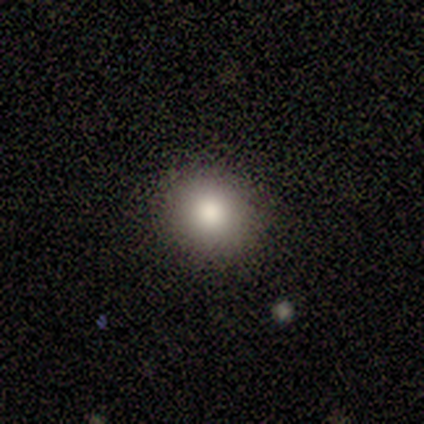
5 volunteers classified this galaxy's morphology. Smooth or featured? 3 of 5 (60%) said smooth. How rounded? 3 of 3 (100%) said round. Merging? 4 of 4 (100%) said none.